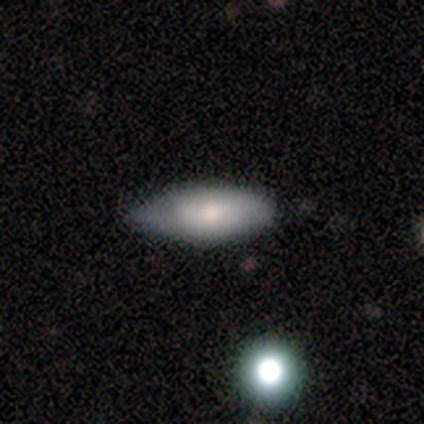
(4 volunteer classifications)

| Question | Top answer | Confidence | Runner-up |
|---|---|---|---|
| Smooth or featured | featured or disk | 75% | star or artifact (25%) |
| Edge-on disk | yes | 67% | no (33%) |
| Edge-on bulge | rounded | 100% | — |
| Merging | none | 67% | minor disturbance (33%) |